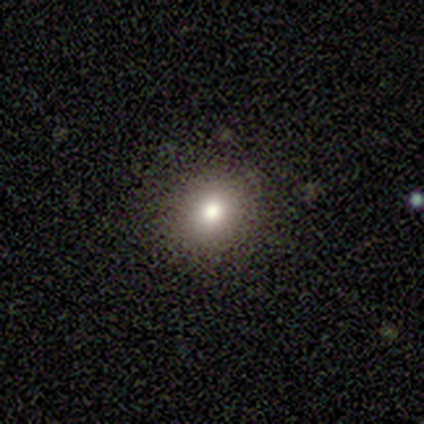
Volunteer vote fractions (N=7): smooth_or_featured: smooth (p=0.86) [alt: star or artifact p=0.14]
how_rounded: round (p=1.00)
merging: none (p=1.00)